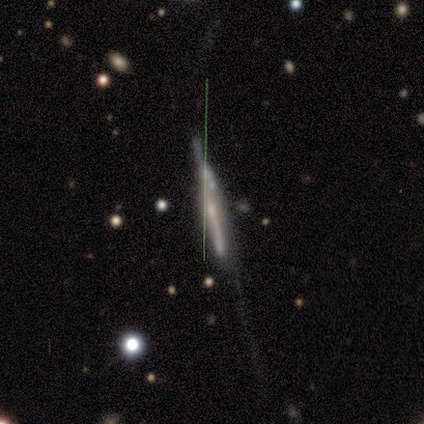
This appears to be a smooth galaxy with no disk features (50%, tied with featured or disk) that is cigar-shaped (100%). Merging: none (50%).